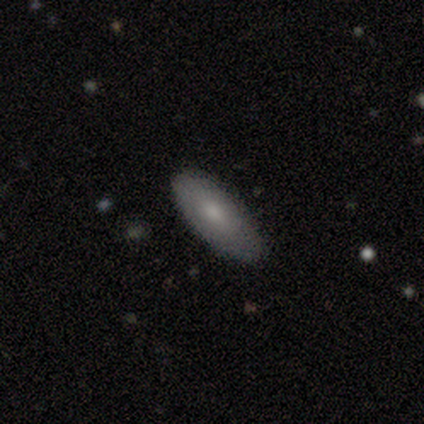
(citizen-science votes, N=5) smooth 60%, featured or disk 40%, star or artifact 0%. Down the decision tree: how rounded — in between (100%); merging — none (100%).